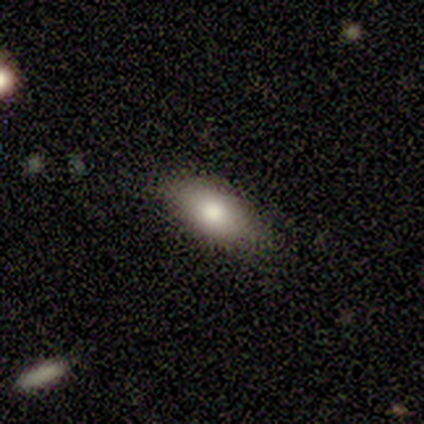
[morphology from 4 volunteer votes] Overall: smooth (100%). How rounded: in between (75%). Merging: none (75%).